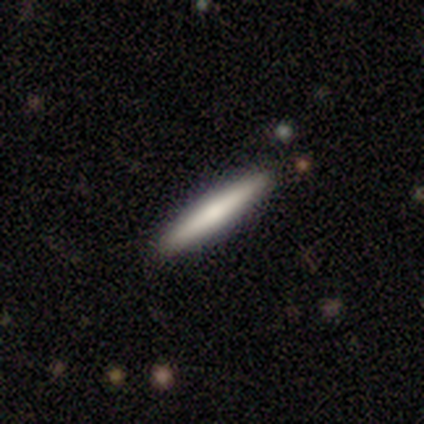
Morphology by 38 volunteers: Smooth or featured: smooth — 61% (featured or disk — 37%)
How rounded: cigar-shaped — 100%
Merging: none — 86% (minor disturbance — 11%)